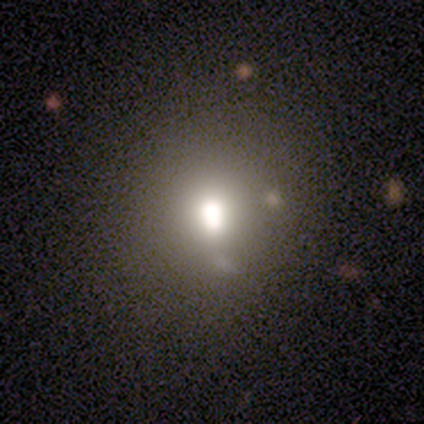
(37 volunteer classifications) Smooth or featured?
  - smooth: 62% *
  - featured or disk: 19%
  - star or artifact: 19%
How rounded?
  - round: 65% *
  - in between: 35%
  - cigar-shaped: 0%
Merging?
  - none: 63% *
  - merger: 20%
  - minor disturbance: 17%
  - major disturbance: 0%